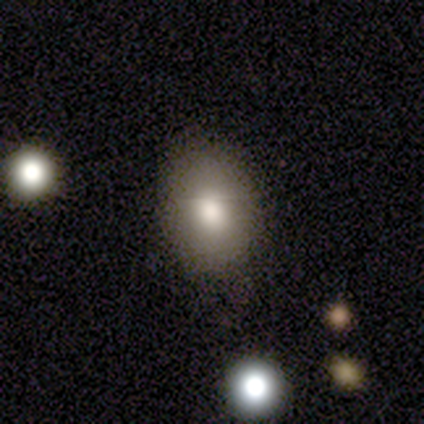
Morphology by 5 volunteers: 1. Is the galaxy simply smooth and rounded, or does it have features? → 60% smooth, 20% featured or disk, 20% star or artifact.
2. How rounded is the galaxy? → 67% in between, 33% round, 0% cigar-shaped.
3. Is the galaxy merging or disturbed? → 75% none, 25% minor disturbance, 0% major disturbance, 0% merger.